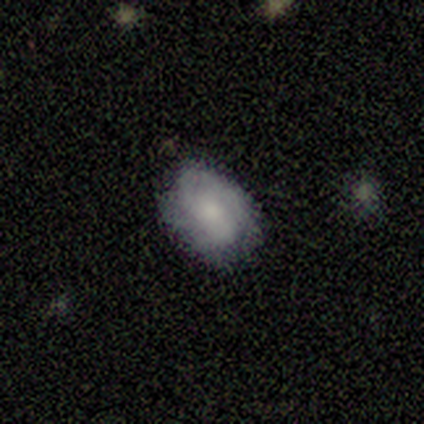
A smooth galaxy with no disk features (51%) that is in between round and cigar-shaped (79%). Merging: none (67%).